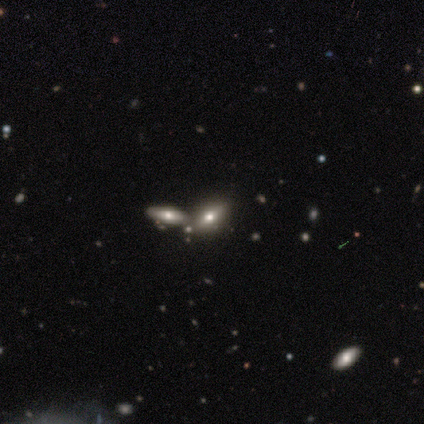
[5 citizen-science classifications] Volunteers were most divided on "smooth or featured": smooth: 60%, featured or disk: 40%, star or artifact: 0%. More confident: how rounded — in between (100%); merging — none (60%).